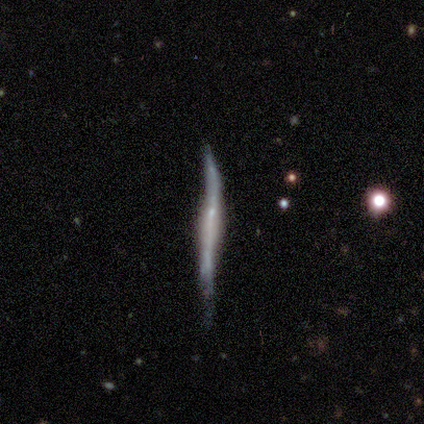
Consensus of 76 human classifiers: This is likely a featured or disk galaxy (78%). It is clearly viewed edge-on (92%). Edge-on bulge: possibly none (48%). Merging: possibly none (54%).